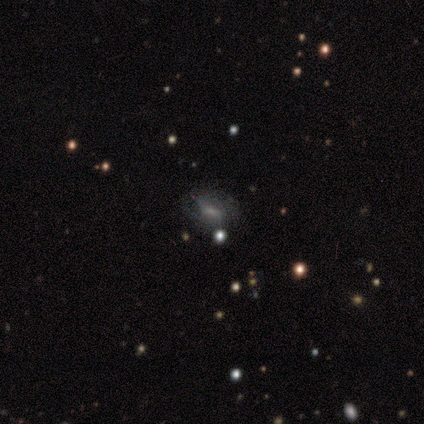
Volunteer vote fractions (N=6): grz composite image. It shows a smooth galaxy with no disk features (50%) that is in between round and cigar-shaped (100%). Merging: none (80%).